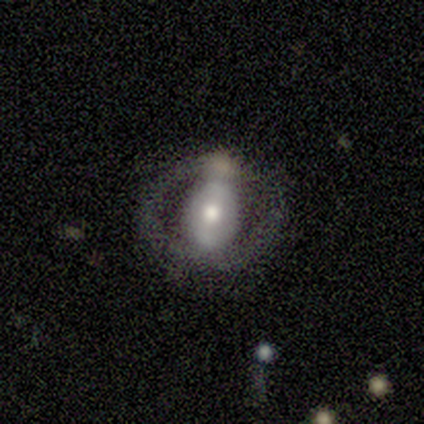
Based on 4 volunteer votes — Smooth or featured? featured or disk (100%)
Edge-on disk? no (75%)
Bar? no (67%)
Spiral arms? no (67%)
Bulge size? moderate (100%)
Merging? major disturbance (75%)